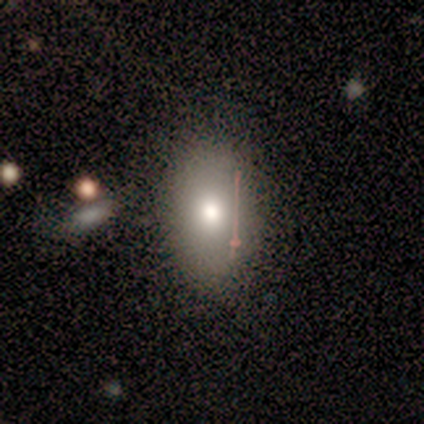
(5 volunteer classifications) A smooth galaxy with no disk features (100%) that is in between round and cigar-shaped (100%). Merging: none (80%).